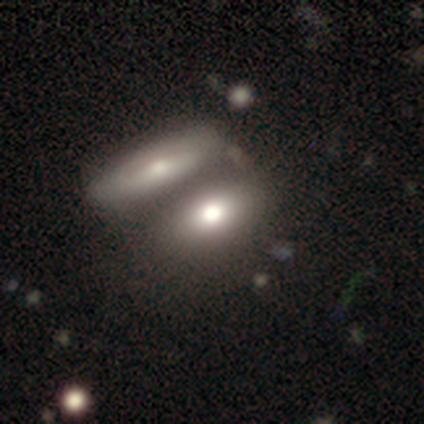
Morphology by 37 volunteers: Volunteers were most divided on "merging": merger: 57%, none: 31%, minor disturbance: 6%, major disturbance: 6%. More confident: smooth or featured — smooth (78%); how rounded — in between (72%).